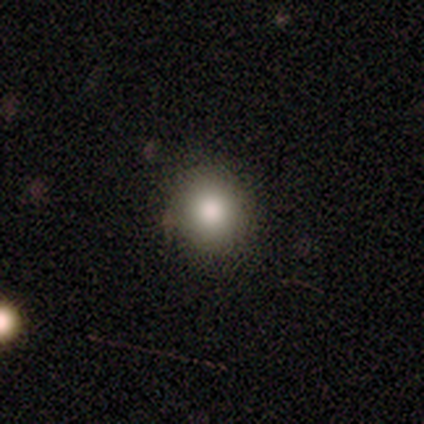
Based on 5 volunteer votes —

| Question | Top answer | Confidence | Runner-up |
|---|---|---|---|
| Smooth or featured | smooth | 100% | — |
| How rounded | round | 80% | in between (20%) |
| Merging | none | 80% | minor disturbance (20%) |